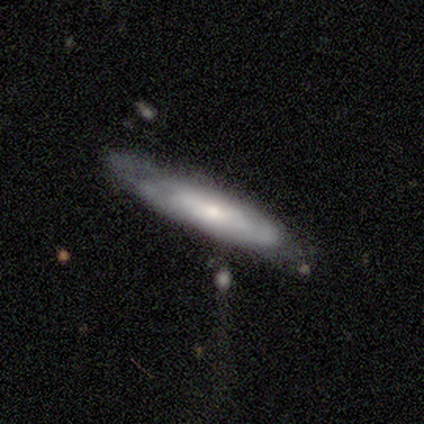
A smooth galaxy with no disk features (50%, tied with featured or disk) that is cigar-shaped (100%). Merging: none (100%).